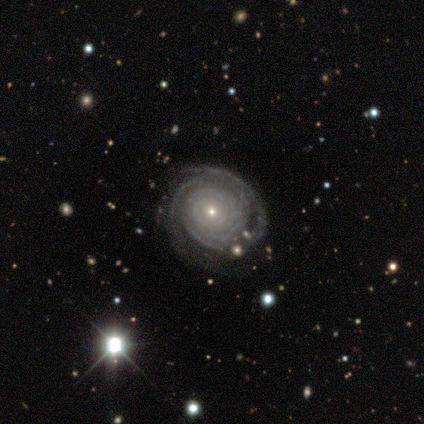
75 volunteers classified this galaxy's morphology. featured or disk 93%, smooth 4%, star or artifact 3%. Down the decision tree: edge-on disk — no (99%); bar — no (90%); spiral arms — yes (100%); spiral arm count — can't tell (30%); spiral winding — tight (90%); bulge size — small (77%); merging — none (62%).